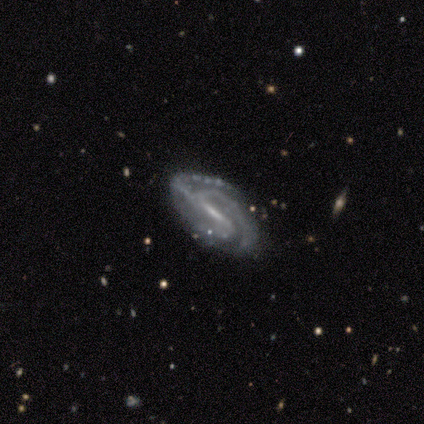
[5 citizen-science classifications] Overall: featured or disk (100%). Edge-on disk: no (100%). Bar: strong (100%). Spiral arms: yes (100%). Spiral arm count: 3 (80%). Spiral winding: tight (40%, tied with medium). Bulge size: moderate (40%, tied with small). Merging: none (80%).